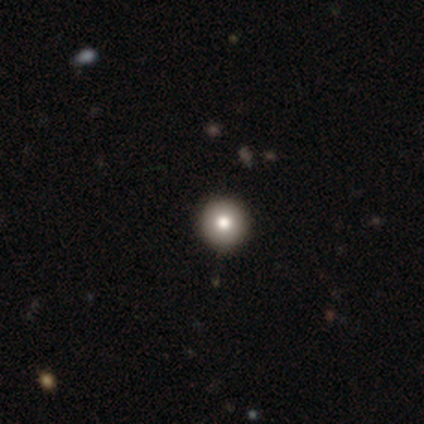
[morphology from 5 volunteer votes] Smooth or featured?
  - smooth: 80% *
  - star or artifact: 20%
  - featured or disk: 0%
How rounded?
  - round: 100% *
  - in between: 0%
  - cigar-shaped: 0%
Merging?
  - none: 100% *
  - minor disturbance: 0%
  - major disturbance: 0%
  - merger: 0%